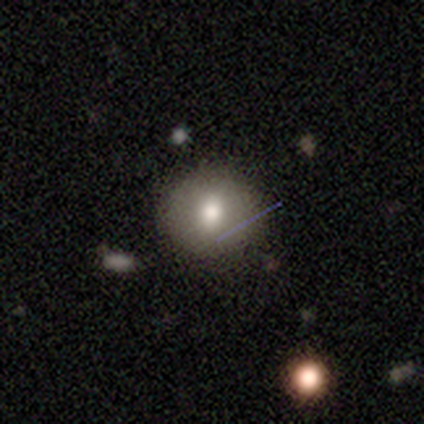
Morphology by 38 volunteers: A smooth galaxy with no disk features (74%) that is round (79%).

Vote fractions:
- Smooth or featured? smooth: 74% / featured or disk: 16% / star or artifact: 11%
- How rounded? round: 79% / in between: 18% / cigar-shaped: 4%
- Merging? none: 79% / minor disturbance: 12% / major disturbance: 9% / merger: 0%